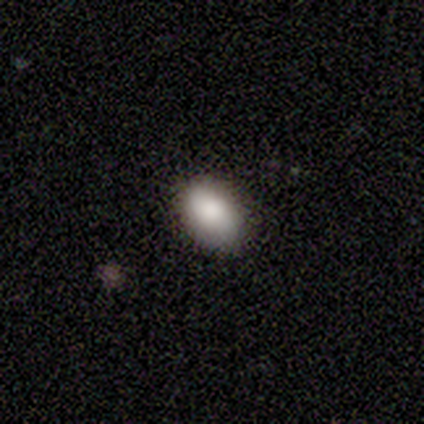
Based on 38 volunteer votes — Smooth or featured?
  - smooth: 87% *
  - star or artifact: 8%
  - featured or disk: 5%
How rounded?
  - in between: 85% *
  - round: 15%
  - cigar-shaped: 0%
Merging?
  - none: 77% *
  - minor disturbance: 20%
  - major disturbance: 3%
  - merger: 0%